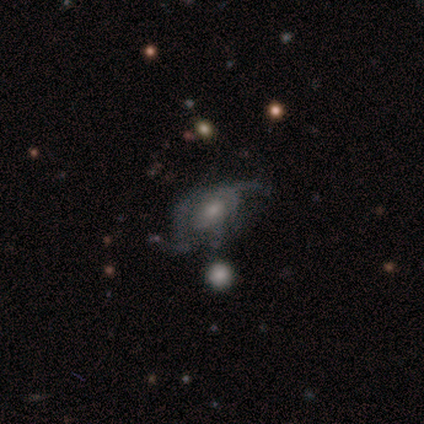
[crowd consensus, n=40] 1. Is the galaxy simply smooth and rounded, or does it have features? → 78% featured or disk, 12% star or artifact, 10% smooth.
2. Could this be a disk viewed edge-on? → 97% no, 3% yes.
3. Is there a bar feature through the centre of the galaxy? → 67% no, 27% weak, 7% strong.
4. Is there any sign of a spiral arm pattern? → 93% yes, 7% no.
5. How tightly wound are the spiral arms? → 50% medium, 29% loose, 21% tight.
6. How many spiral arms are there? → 46% can't tell, 36% 2, 7% 3, 7% 4, 4% 1, 0% more than 4.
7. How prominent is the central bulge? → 47% small, 33% moderate, 17% none, 3% large, 0% dominant.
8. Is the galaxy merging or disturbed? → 49% none, 31% major disturbance, 17% minor disturbance, 3% merger.